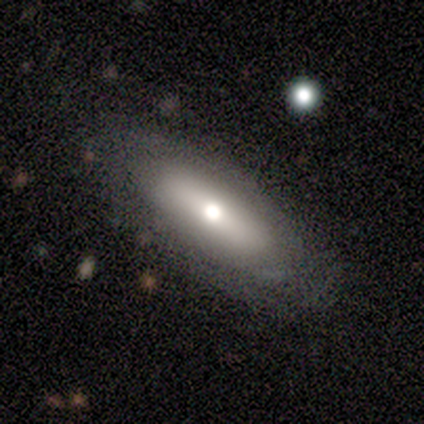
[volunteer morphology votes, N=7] Smooth or featured? featured or disk (57%)
Edge-on disk? no (75%)
Bar? no (67%)
Spiral arms? no (100%)
Bulge size? moderate (100%)
Merging? none (86%)